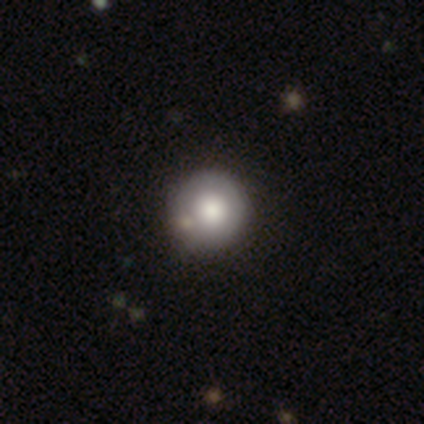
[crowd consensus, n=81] This is likely a smooth galaxy (73%). How rounded: clearly round (97%). Merging: marginally none (41%).